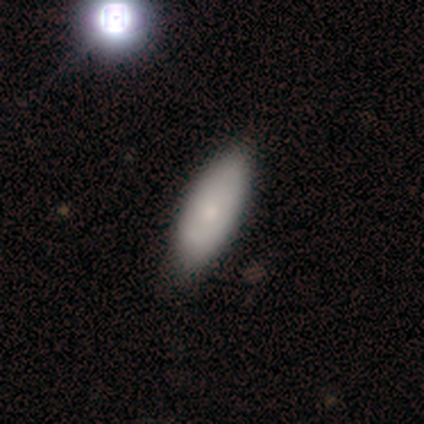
Smooth or featured? smooth (75%)
How rounded? in between (100%)
Merging? none (100%)